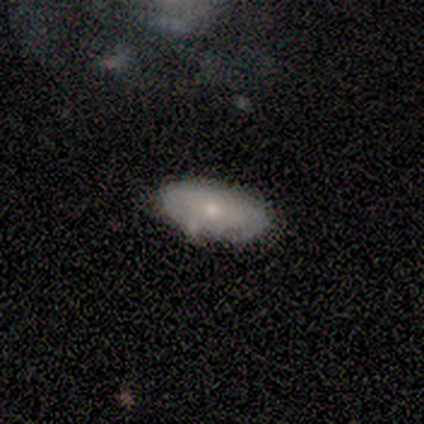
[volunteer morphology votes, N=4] Volunteers were most divided on "smooth or featured": smooth: 50%, featured or disk: 25%, star or artifact: 25%. More confident: how rounded — in between (100%); merging — none (100%).